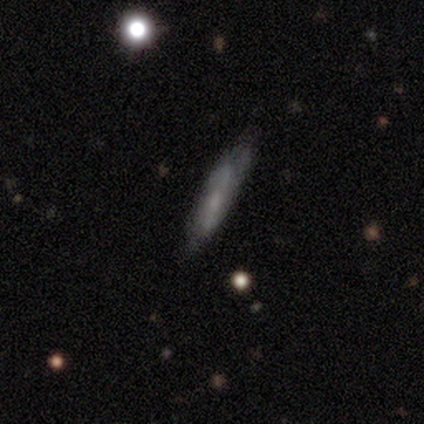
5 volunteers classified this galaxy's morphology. A smooth galaxy with no disk features (60%) that is cigar-shaped (67%). Merging: none (60%).